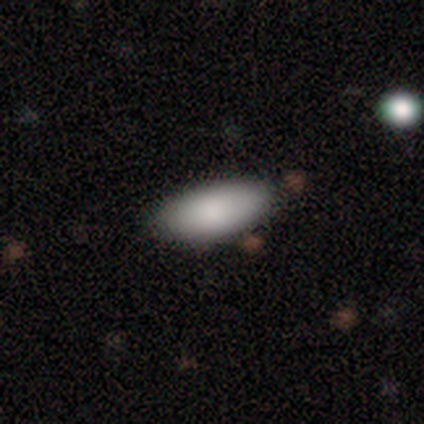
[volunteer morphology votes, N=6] smooth-or-featured: smooth: 83% | star or artifact: 17% | featured or disk: 0%
  how-rounded: in between: 100% | round: 0% | cigar-shaped: 0%
  merging: none: 80% | minor disturbance: 20% | major disturbance: 0% | merger: 0%